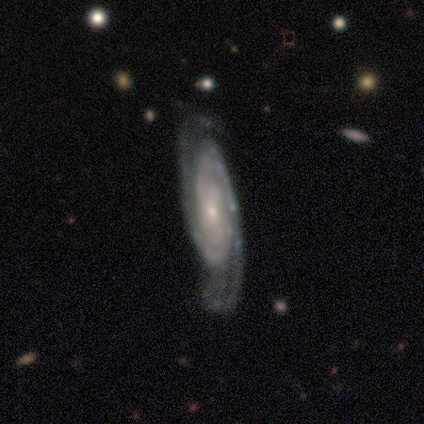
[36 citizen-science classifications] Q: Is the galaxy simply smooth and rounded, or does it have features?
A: featured or disk — 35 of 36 (97%).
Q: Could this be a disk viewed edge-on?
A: no — 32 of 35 (91%).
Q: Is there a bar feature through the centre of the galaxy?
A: no — 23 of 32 (72%).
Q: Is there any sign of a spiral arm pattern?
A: yes — 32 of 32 (100%).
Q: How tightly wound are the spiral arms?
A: tight — 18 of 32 (56%).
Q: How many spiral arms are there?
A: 2 — 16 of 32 (50%).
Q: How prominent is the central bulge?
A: small — 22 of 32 (69%).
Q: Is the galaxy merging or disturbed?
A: none — 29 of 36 (81%).